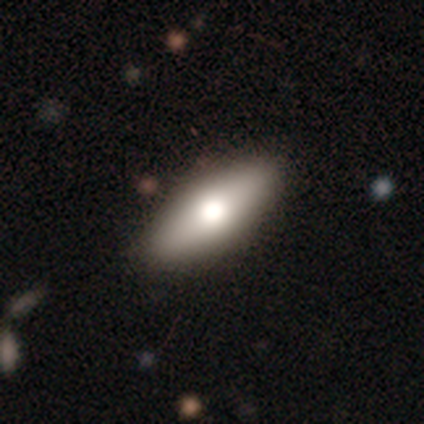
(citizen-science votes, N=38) A smooth galaxy with no disk features (61%) that is in between round and cigar-shaped (70%).

Vote fractions:
- Smooth or featured? smooth: 61% / featured or disk: 29% / star or artifact: 11%
- How rounded? in between: 70% / cigar-shaped: 30% / round: 0%
- Merging? none: 85% / minor disturbance: 12% / major disturbance: 3% / merger: 0%